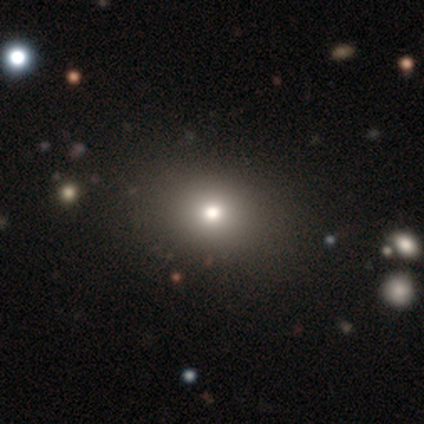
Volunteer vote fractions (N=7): smooth_or_featured: smooth (p=0.57) [alt: featured or disk p=0.29]
how_rounded: round (p=0.75) [alt: in between p=0.25]
merging: none (p=1.00)